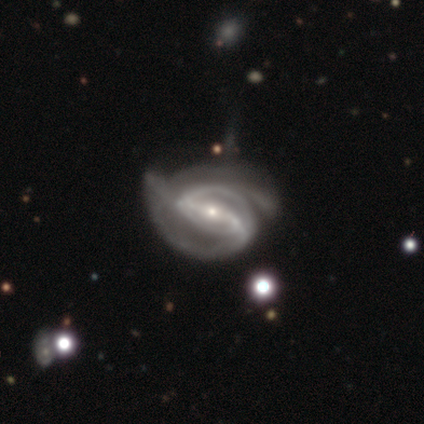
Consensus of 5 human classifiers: This is clearly a featured or disk galaxy (100%). It is clearly not viewed edge-on (100%). Bar: clearly strong (100%). Spiral arm pattern: clearly yes (80%). Spiral arm count: clearly 2 (100%). Spiral winding: likely medium (75%). Central bulge: likely small (60%). Merging: likely major disturbance (60%).